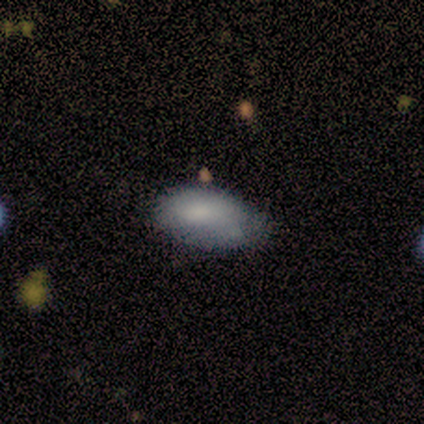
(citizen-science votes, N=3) smooth 100%, featured or disk 0%, star or artifact 0%. Down the decision tree: how rounded — in between (100%); merging — none (67%).